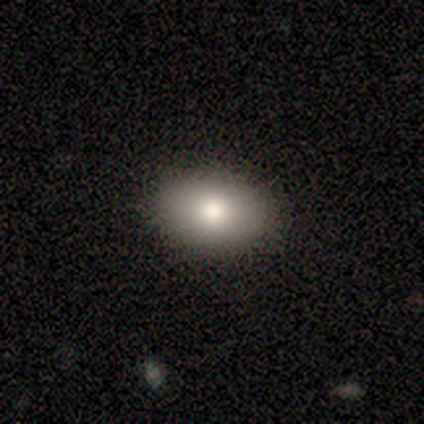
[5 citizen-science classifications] smooth 80%, star or artifact 20%, featured or disk 0%. Down the decision tree: how rounded — in between (100%); merging — none (75%).